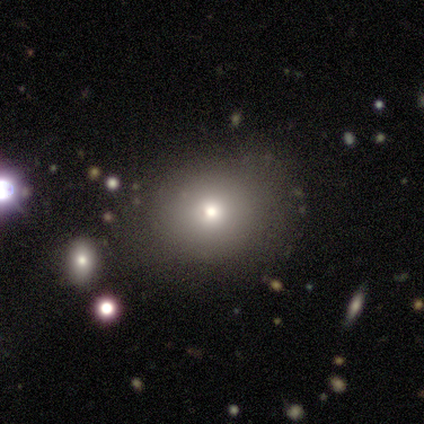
Smooth or featured: smooth — 54% (featured or disk — 31%)
How rounded: round — 71% (in between — 29%)
Merging: none — 91% (minor disturbance — 9%)